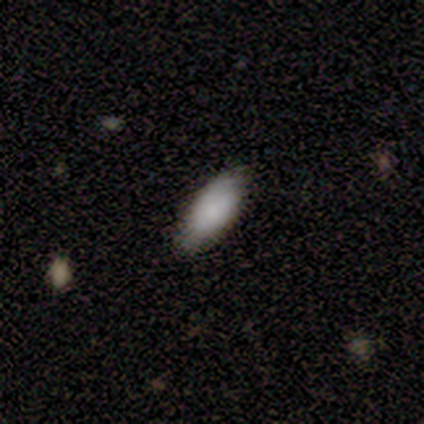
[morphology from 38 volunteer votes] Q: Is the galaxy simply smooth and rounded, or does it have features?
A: smooth — 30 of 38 (79%).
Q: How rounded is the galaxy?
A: in between — 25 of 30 (83%).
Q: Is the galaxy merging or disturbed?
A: none — 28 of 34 (82%).